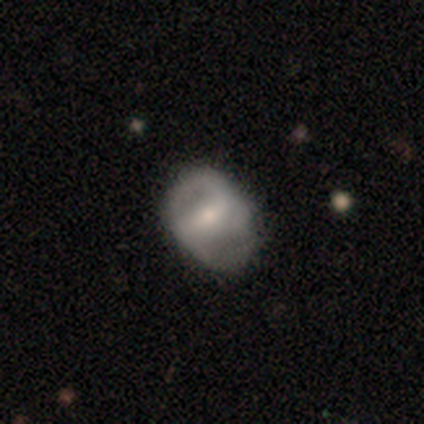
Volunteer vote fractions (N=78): Smooth or featured? featured or disk (68%)
Edge-on disk? no (96%)
Bar? strong (47%)
Spiral arms? yes (67%)
Spiral winding? medium (44%)
Spiral arm count? 2 (79%)
Bulge size? moderate (49%)
Merging? none (41%)